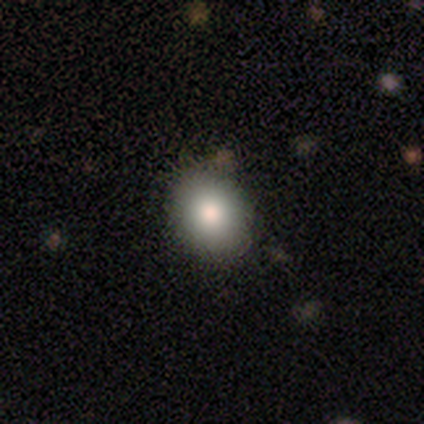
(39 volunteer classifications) Q: Smooth or featured?
A: smooth (79%); runner-up: featured or disk (13%)
Q: How rounded?
A: round (61%); runner-up: in between (39%)
Q: Merging?
A: none (83%); runner-up: minor disturbance (14%)